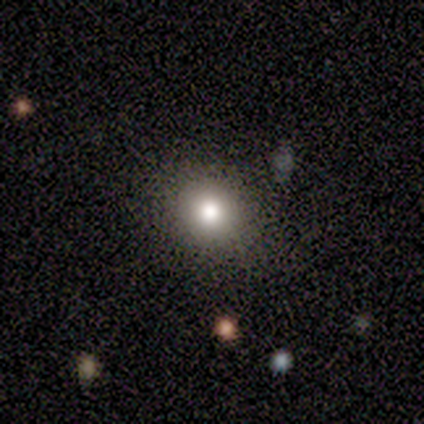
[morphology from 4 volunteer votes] smooth-or-featured: smooth: 100% | featured or disk: 0% | star or artifact: 0%
  how-rounded: round: 50% (tied) | in between: 50% (tied) | cigar-shaped: 0%
  merging: none: 75% | major disturbance: 25% | minor disturbance: 0% | merger: 0%